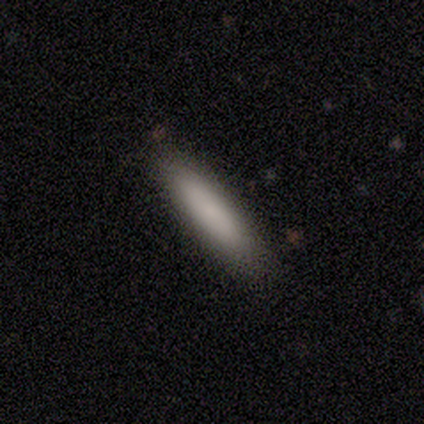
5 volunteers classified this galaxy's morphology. This is clearly a smooth galaxy (100%). How rounded: clearly cigar-shaped (80%). Merging: clearly none (100%).